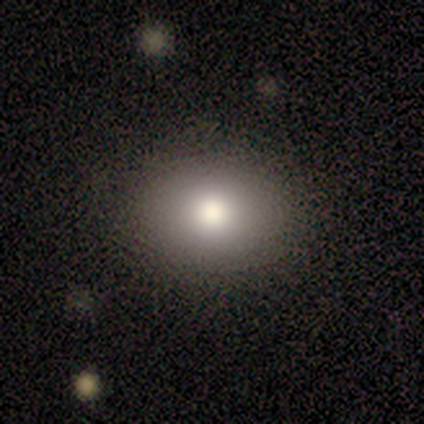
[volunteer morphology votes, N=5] Overall: smooth (80%). How rounded: round (75%). Merging: none (80%).